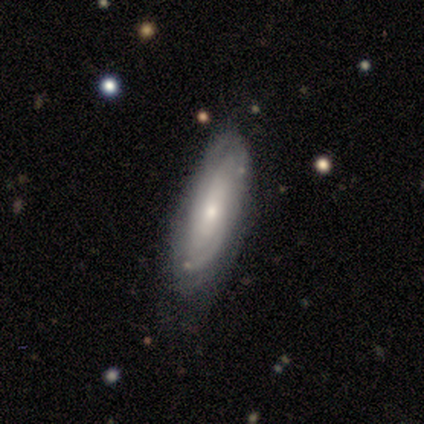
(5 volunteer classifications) A featured or disk galaxy (100%) with a weak bar (50%, tied with no), tight (67%) spiral arms (75%) and a small central bulge (75%).

Vote fractions:
- Smooth or featured? featured or disk: 100% / smooth: 0% / star or artifact: 0%
- Edge-on disk? no: 80% / yes: 20%
- Bar? weak: 50% (tied) / no: 50% (tied) / strong: 0%
- Spiral arms? yes: 75% / no: 25%
- Spiral winding? tight: 67% / loose: 33% / medium: 0%
- Spiral arm count? can't tell: 67% / 2: 33% / 1: 0% / 3: 0% / 4: 0% / more than 4: 0%
- Bulge size? small: 75% / moderate: 25% / dominant: 0% / large: 0% / none: 0%
- Merging? none: 60% / minor disturbance: 40% / major disturbance: 0% / merger: 0%